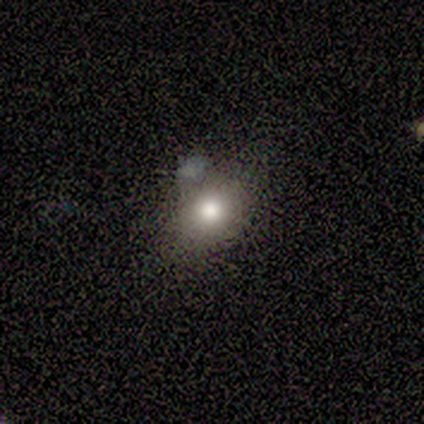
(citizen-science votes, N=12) smooth 83%, featured or disk 8%, star or artifact 8%. Down the decision tree: how rounded — in between (80%); merging — none (45%).